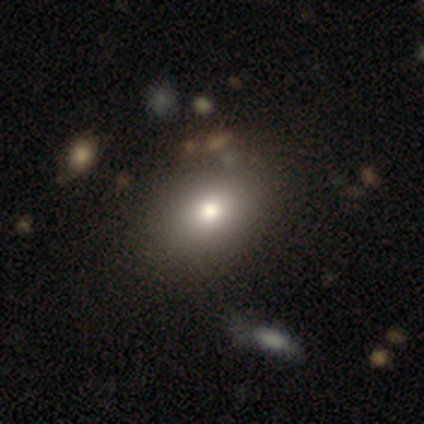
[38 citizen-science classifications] A smooth galaxy with no disk features (76%) that is in between round and cigar-shaped (90%).

Vote fractions:
- Smooth or featured? smooth: 76% / featured or disk: 13% / star or artifact: 11%
- How rounded? in between: 90% / round: 10% / cigar-shaped: 0%
- Merging? none: 68% / minor disturbance: 6% / merger: 6% / major disturbance: 3%